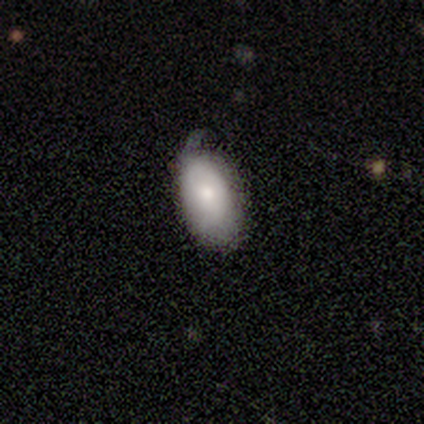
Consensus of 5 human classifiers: Morphology: type=smooth (80%); roundness=in between (100%); merging=minor disturbance (60%).